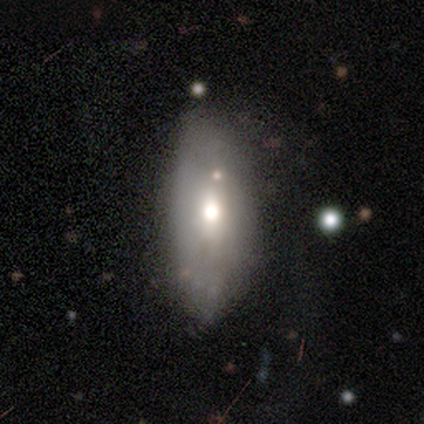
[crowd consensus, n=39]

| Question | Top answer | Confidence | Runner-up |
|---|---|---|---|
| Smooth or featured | smooth | 59% | featured or disk (38%) |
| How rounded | in between | 83% | cigar-shaped (13%) |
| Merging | none | 47% | minor disturbance (37%) |